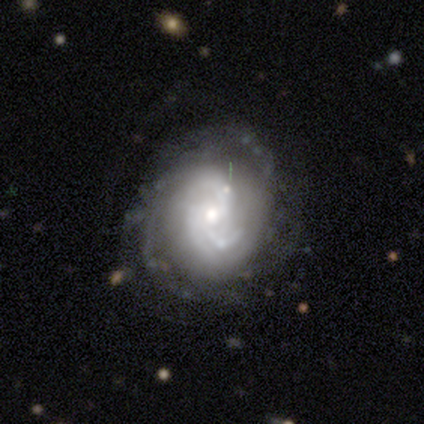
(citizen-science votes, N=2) This is clearly a featured or disk galaxy (100%). It is clearly not viewed edge-on (100%). Bar: possibly weak (50%, tied with no). Spiral arm pattern: clearly yes (100%). Spiral arm count: possibly 2 (50%, tied with can't tell). Spiral winding: possibly medium (50%, tied with loose). Central bulge: possibly moderate (50%, tied with small). Merging: clearly none (100%).